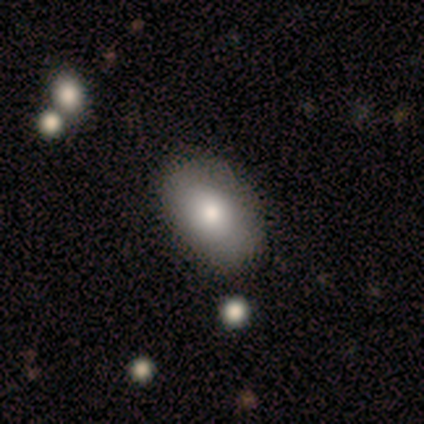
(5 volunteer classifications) Smooth or featured? smooth (80%)
How rounded? in between (100%)
Merging? none (80%)